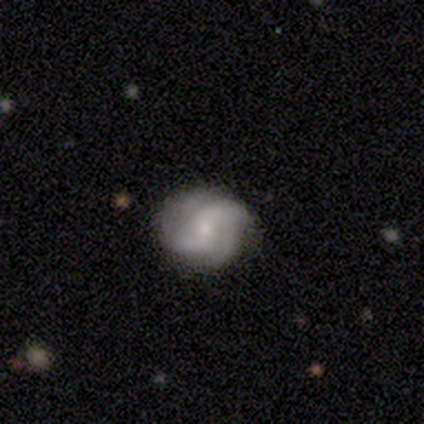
A featured or disk galaxy (79%) with no bar (55%), 4 (33%, tied with can't tell) medium (44%) spiral arms (82%) and a small central bulge (73%).

Vote fractions:
- Smooth or featured? featured or disk: 79% / smooth: 21% / star or artifact: 0%
- Edge-on disk? no: 100% / yes: 0%
- Bar? no: 55% / weak: 45% / strong: 0%
- Spiral arms? yes: 82% / no: 18%
- Spiral winding? medium: 44% / loose: 33% / tight: 22%
- Spiral arm count? 4: 33% (tied) / can't tell: 33% (tied) / 2: 22% / 3: 11% / 1: 0% / more than 4: 0%
- Bulge size? small: 73% / moderate: 18% / large: 9% / dominant: 0% / none: 0%
- Merging? none: 64% / major disturbance: 21% / minor disturbance: 14% / merger: 0%